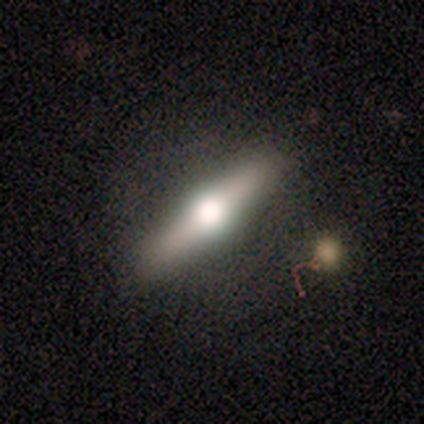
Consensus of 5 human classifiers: smooth-or-featured: featured or disk: 80% | star or artifact: 20% | smooth: 0%
  disk-edge-on: yes: 100% | no: 0%
    edge-on-bulge: rounded: 100% | boxy: 0% | none: 0%
  merging: none: 100% | minor disturbance: 0% | major disturbance: 0% | merger: 0%